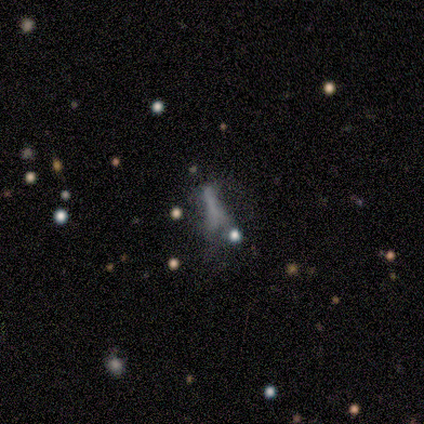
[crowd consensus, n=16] smooth_or_featured: smooth (p=0.44) [alt: star or artifact p=0.38]
how_rounded: cigar-shaped (p=0.57) [alt: in between p=0.29]
merging: minor disturbance (p=0.50) [alt: major disturbance p=0.20]